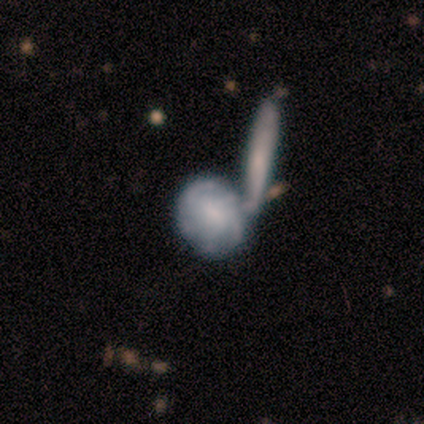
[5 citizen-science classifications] smooth_or_featured: featured or disk (p=0.60) [alt: smooth p=0.40]
disk_edge_on: no (p=1.00)
bar: weak (p=1.00)
has_spiral_arms: yes (p=1.00)
spiral_winding: medium (p=0.67) [alt: tight p=0.33]
spiral_arm_count: 3 (p=0.33) [tied with: 4 p=0.33, can't tell p=0.33]
bulge_size: small (p=1.00)
merging: none (p=0.40) [tied with: merger p=0.40]